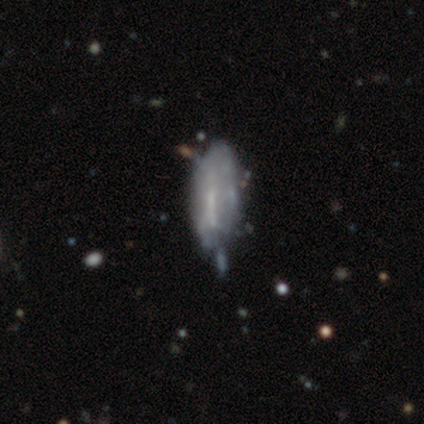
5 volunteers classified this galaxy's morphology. Volunteers were most divided on "how rounded": in between: 67%, cigar-shaped: 33%, round: 0%. More confident: merging — minor disturbance (75%); smooth or featured — smooth (60%).